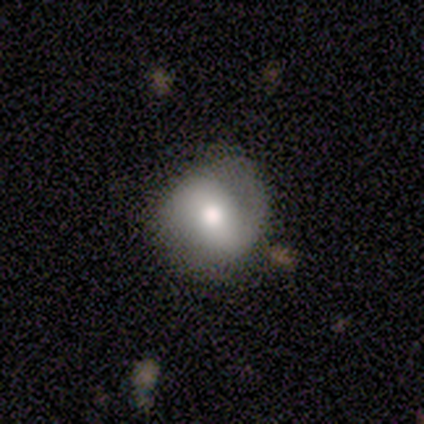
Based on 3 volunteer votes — Smooth or featured? 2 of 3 (67%) said smooth. How rounded? 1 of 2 (50%, tied with in between) said round. Merging? 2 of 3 (67%) said none.